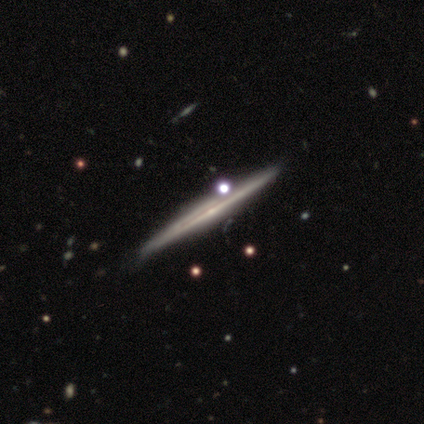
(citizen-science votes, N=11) A featured or disk galaxy (91%) viewed edge-on (100%) with a rounded central bulge (60%).

Vote fractions:
- Smooth or featured? featured or disk: 91% / star or artifact: 9% / smooth: 0%
- Edge-on disk? yes: 100% / no: 0%
- Edge-on bulge? rounded: 60% / none: 30% / boxy: 10%
- Merging? none: 80% / minor disturbance: 20% / major disturbance: 0% / merger: 0%